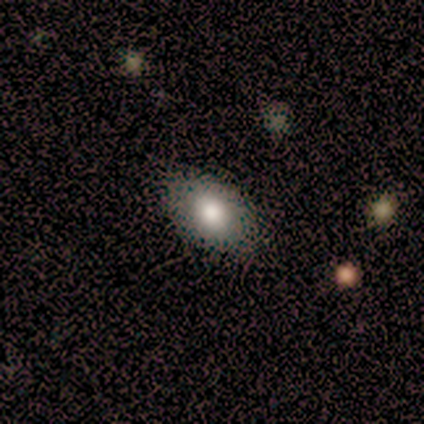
smooth-or-featured: smooth: 67% | featured or disk: 22% | star or artifact: 11%
  how-rounded: in between: 100% | round: 0% | cigar-shaped: 0%
  merging: none: 100% | minor disturbance: 0% | major disturbance: 0% | merger: 0%